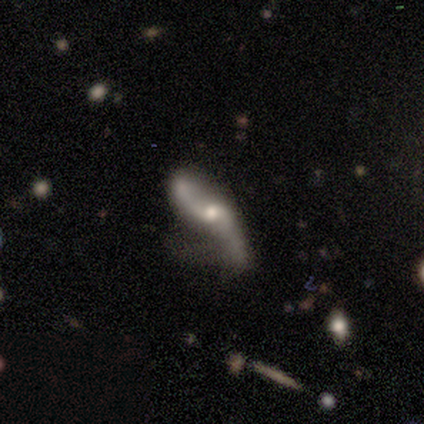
Overall: featured or disk (82%). Edge-on disk: no (94%). Bar: no (57%; weak 37%). Spiral arms: yes (93%). Spiral arm count: 2 (96%). Spiral winding: loose (82%). Bulge size: moderate (50%; small 40%). Merging: none (34%, tied with minor disturbance).